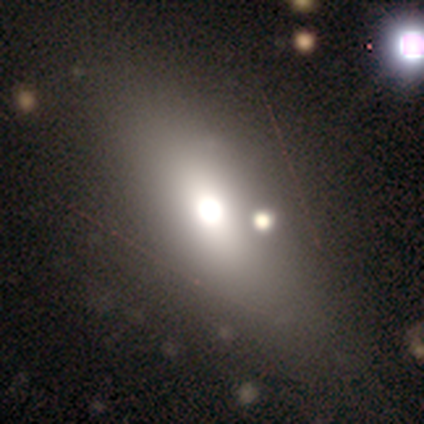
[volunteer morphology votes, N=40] Smooth or featured? smooth (75%)
How rounded? in between (83%)
Merging? none (64%)